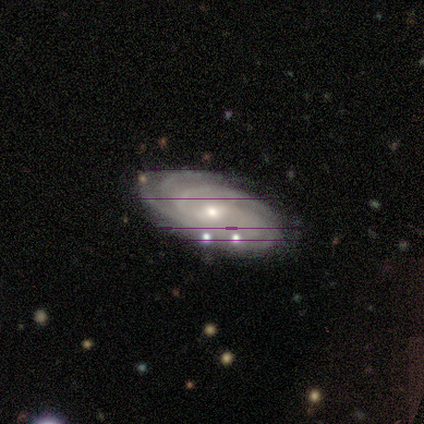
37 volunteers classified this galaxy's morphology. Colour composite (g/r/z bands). It shows a featured or disk galaxy (59%) with a weak bar (67%), 4 (38%) tight (67%) spiral arms (100%) and a small central bulge (52%). Merging: none (84%).